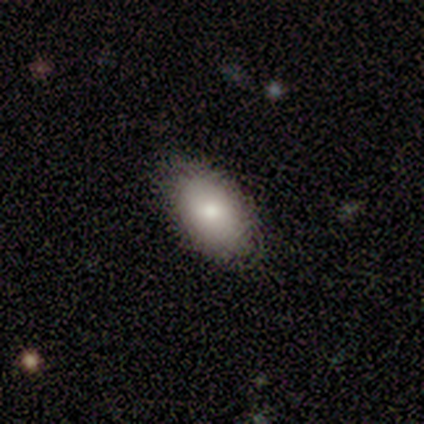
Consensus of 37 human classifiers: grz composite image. It shows a smooth galaxy with no disk features (73%) that is in between round and cigar-shaped (81%). Merging: none (85%).